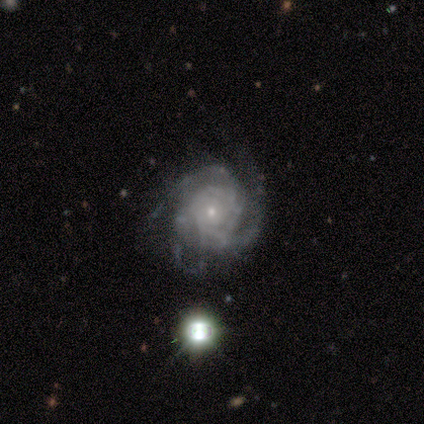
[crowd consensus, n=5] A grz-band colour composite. It shows a featured or disk galaxy (100%) with no bar (80%), 2 (40%, tied with 3) tight (100%) spiral arms (100%) and a small central bulge (100%). Merging: none (60%).